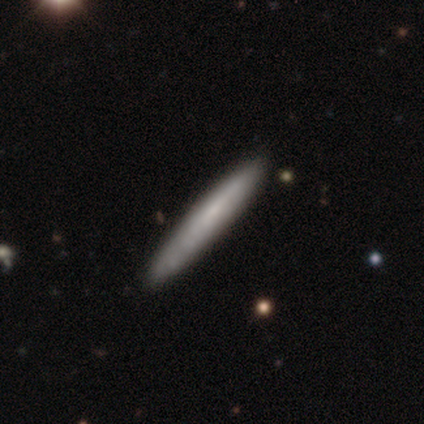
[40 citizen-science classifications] Smooth or featured: smooth — 82% (featured or disk — 18%)
How rounded: cigar-shaped — 97% (in between — 3%)
Merging: none — 85% (minor disturbance — 8%)